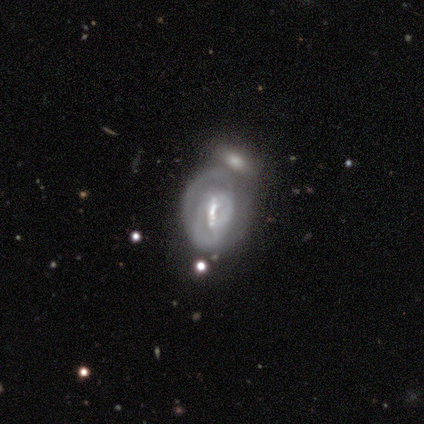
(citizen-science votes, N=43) This appears to be a featured or disk galaxy (79%) with a weak bar (38%), tight (65%) spiral arms (76%) and a small central bulge (47%). Merging: merger (39%).